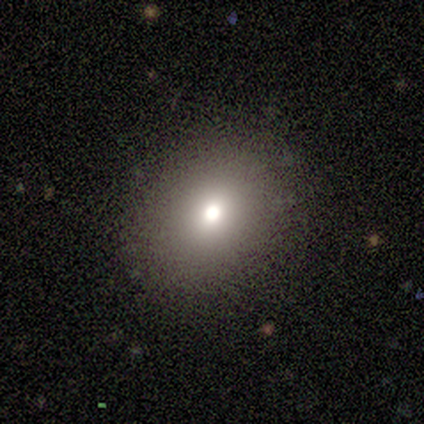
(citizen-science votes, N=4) smooth_or_featured: smooth (p=1.00)
how_rounded: round (p=1.00)
merging: none (p=0.75) [alt: merger p=0.25]